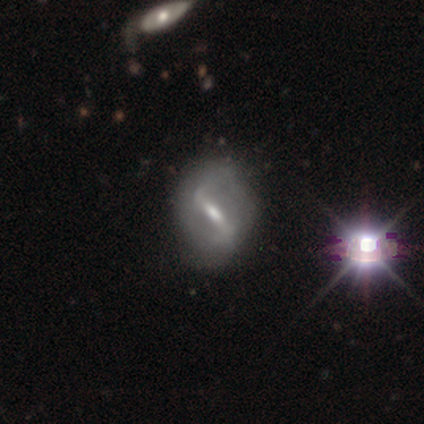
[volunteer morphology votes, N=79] This appears to be a featured or disk galaxy (80%) with a strong bar (71%), 2 (88%) loose (55%) spiral arms (68%) and a moderate central bulge (58%). Merging: none (39%).